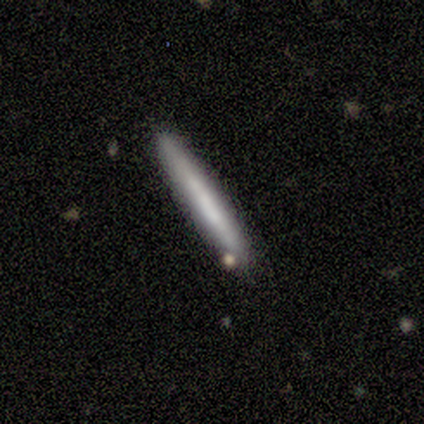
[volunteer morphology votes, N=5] smooth 60%, featured or disk 40%, star or artifact 0%. Down the decision tree: how rounded — cigar-shaped (100%); merging — none (100%).